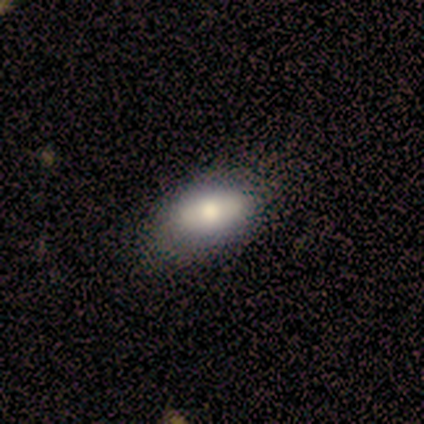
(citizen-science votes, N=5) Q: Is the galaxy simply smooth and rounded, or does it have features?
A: smooth — 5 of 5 (100%).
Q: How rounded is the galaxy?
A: in between — 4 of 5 (80%).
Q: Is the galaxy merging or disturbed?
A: none — 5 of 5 (100%).